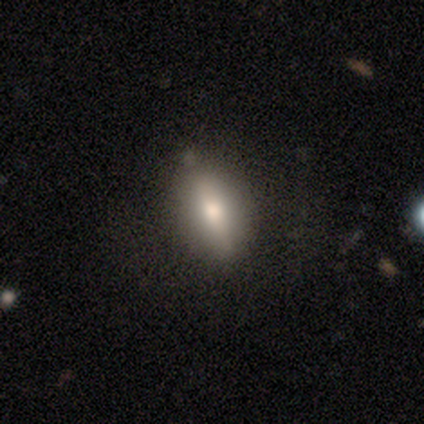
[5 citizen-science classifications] smooth-or-featured: smooth: 40% (tied) | featured or disk: 40% (tied) | star or artifact: 20%
  how-rounded: in between: 50% (tied) | cigar-shaped: 50% (tied) | round: 0%
  merging: none: 75% | minor disturbance: 25% | major disturbance: 0% | merger: 0%